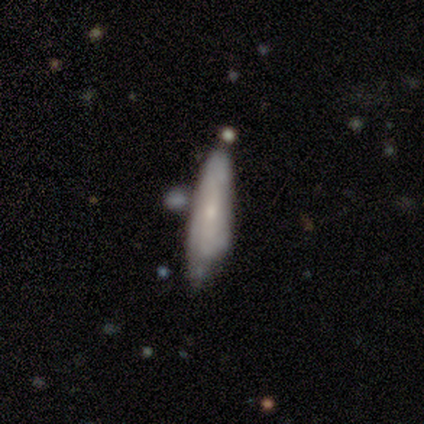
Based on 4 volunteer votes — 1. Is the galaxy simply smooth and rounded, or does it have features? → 50% smooth (tied), 50% featured or disk (tied), 0% star or artifact.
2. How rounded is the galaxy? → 50% in between (tied), 50% cigar-shaped (tied), 0% round.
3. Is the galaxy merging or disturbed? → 75% none, 25% minor disturbance, 0% major disturbance, 0% merger.